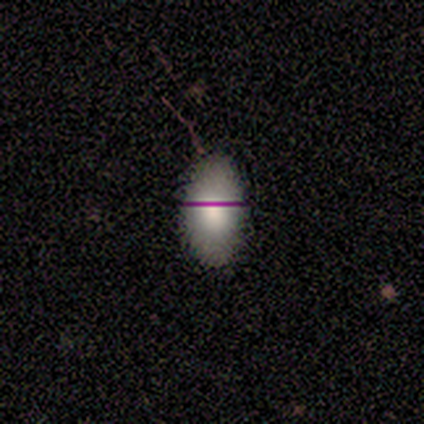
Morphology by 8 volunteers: Smooth or featured?
  - smooth: 75% *
  - featured or disk: 25%
  - star or artifact: 0%
How rounded?
  - in between: 100% *
  - round: 0%
  - cigar-shaped: 0%
Merging?
  - none: 88% *
  - minor disturbance: 12%
  - major disturbance: 0%
  - merger: 0%